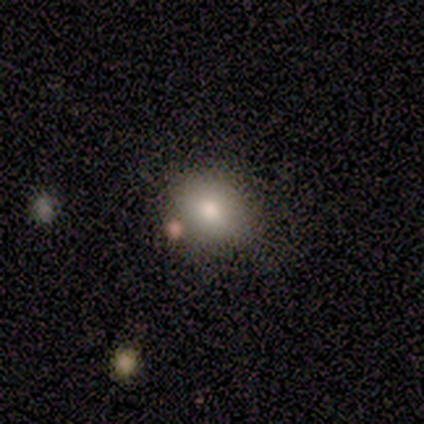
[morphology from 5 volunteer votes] Overall: smooth (40%, tied with featured or disk). How rounded: round (100%). Merging: none (75%).